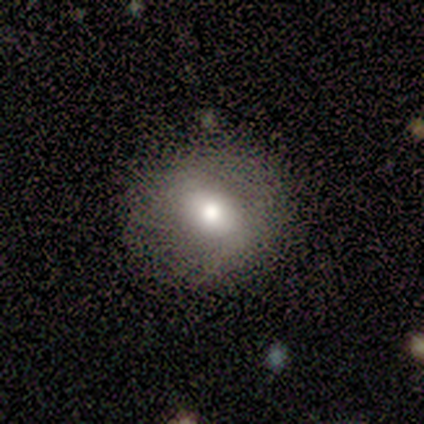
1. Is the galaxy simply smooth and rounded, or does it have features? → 33% smooth (tied), 33% featured or disk (tied), 33% star or artifact (tied).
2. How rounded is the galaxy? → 100% round, 0% in between, 0% cigar-shaped.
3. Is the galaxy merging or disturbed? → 50% none (tied), 50% minor disturbance (tied), 0% major disturbance, 0% merger.